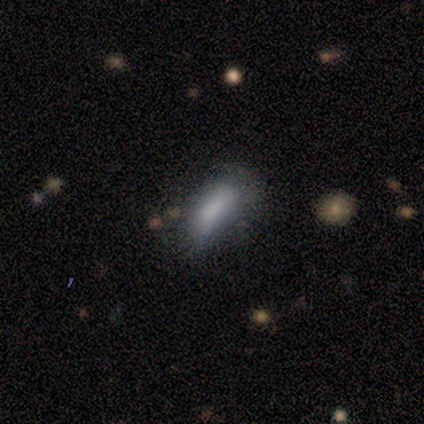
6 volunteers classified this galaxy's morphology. A smooth galaxy with no disk features (50%, tied with featured or disk) that is in between round and cigar-shaped (100%). Merging: major disturbance (50%).